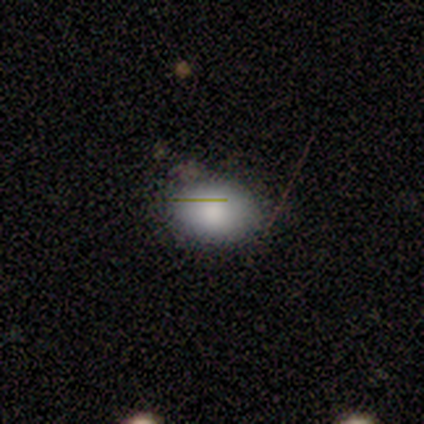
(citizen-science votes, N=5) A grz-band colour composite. It shows a smooth galaxy with no disk features (80%) that is in between round and cigar-shaped (100%). Merging: none (100%).